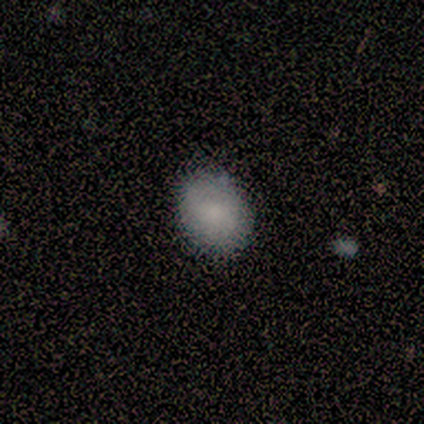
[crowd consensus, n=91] smooth-or-featured: smooth: 88% | featured or disk: 7% | star or artifact: 5%
  how-rounded: in between: 52% | round: 46% | cigar-shaped: 1%
  merging: none: 87% | minor disturbance: 13% | major disturbance: 0% | merger: 0%